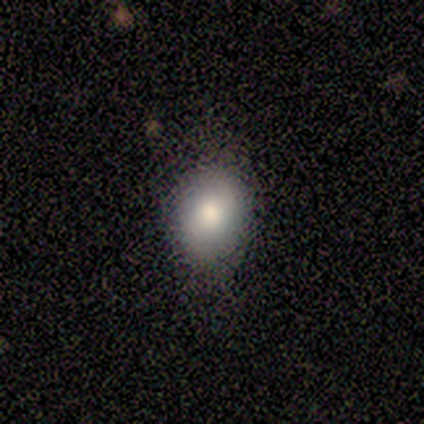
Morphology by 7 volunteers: type=smooth (71%); roundness=in between (60%); merging=none (83%).